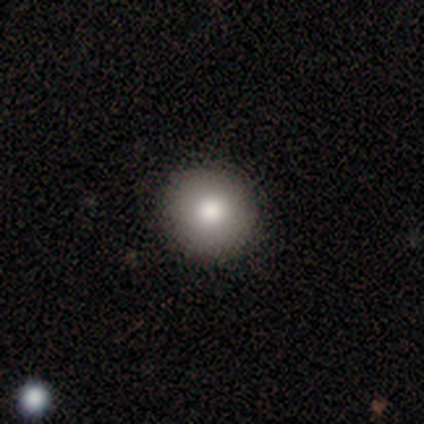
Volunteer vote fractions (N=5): Smooth or featured? 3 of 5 (60%) said smooth. How rounded? 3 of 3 (100%) said round. Merging? 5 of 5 (100%) said none.